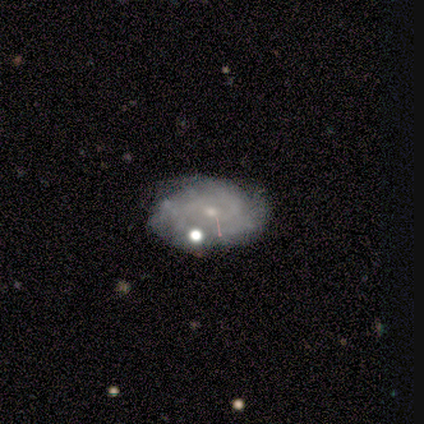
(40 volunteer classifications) This is likely a featured or disk galaxy (78%). It is clearly not viewed edge-on (100%). Bar: likely no (71%). Spiral arm pattern: clearly yes (87%). Spiral arm count: marginally can't tell (41%). Spiral winding: likely tight (63%). Central bulge: likely small (68%). Merging: likely none (70%).